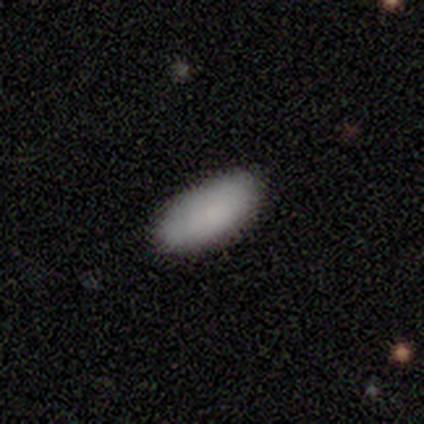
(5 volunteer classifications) A smooth galaxy with no disk features (80%) that is in between round and cigar-shaped (100%). Merging: none (100%).